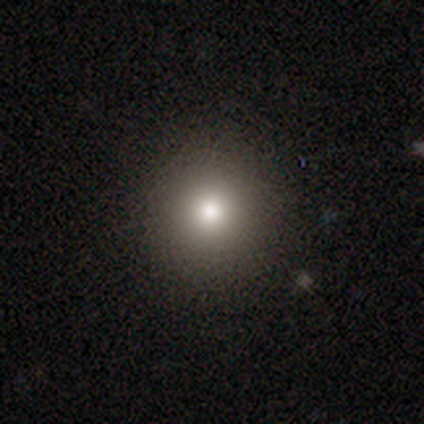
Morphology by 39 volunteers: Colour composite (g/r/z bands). It shows a smooth galaxy with no disk features (74%) that is round (100%). Merging: none (91%).